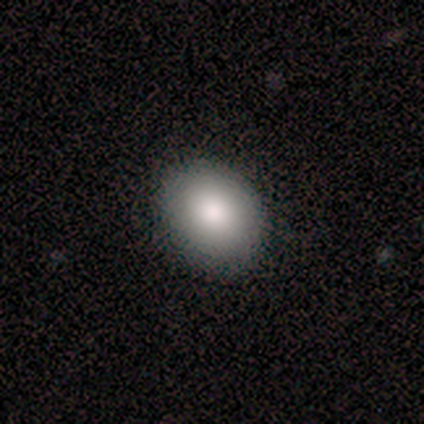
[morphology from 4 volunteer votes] A smooth galaxy with no disk features (100%) that is round (100%).

Vote fractions:
- Smooth or featured? smooth: 100% / featured or disk: 0% / star or artifact: 0%
- How rounded? round: 100% / in between: 0% / cigar-shaped: 0%
- Merging? none: 100% / minor disturbance: 0% / major disturbance: 0% / merger: 0%